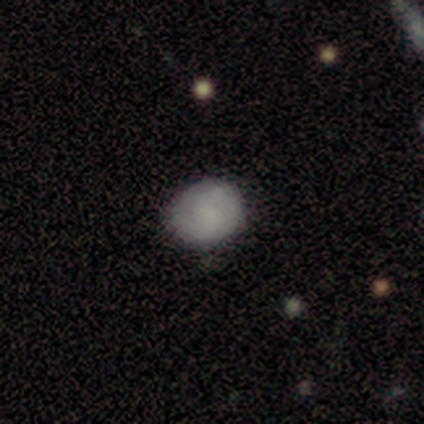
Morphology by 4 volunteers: This is clearly a smooth galaxy (100%). How rounded: likely round (75%). Merging: clearly none (100%).